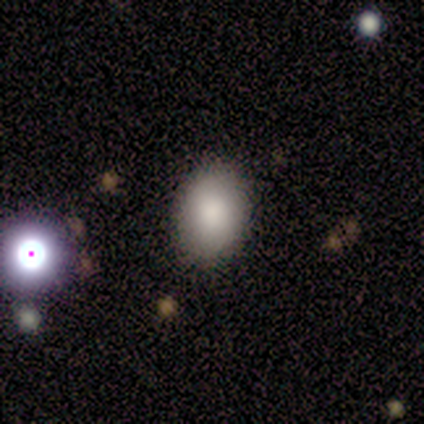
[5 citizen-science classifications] smooth_or_featured: smooth (p=0.80) [alt: featured or disk p=0.20]
how_rounded: round (p=0.50) [tied with: in between p=0.50]
merging: none (p=0.80) [alt: merger p=0.20]